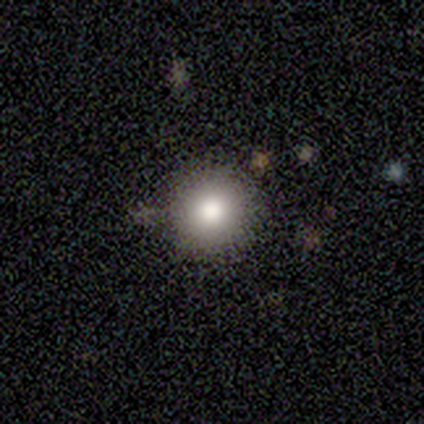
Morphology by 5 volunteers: smooth_or_featured: smooth (p=0.60) [alt: star or artifact p=0.40]
how_rounded: round (p=1.00)
merging: none (p=1.00)